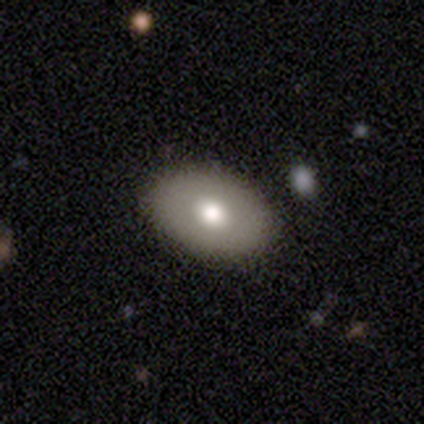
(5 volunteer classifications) Volunteers were most divided on "how rounded": in between: 75%, round: 25%, cigar-shaped: 0%. More confident: merging — none (100%); smooth or featured — smooth (80%).